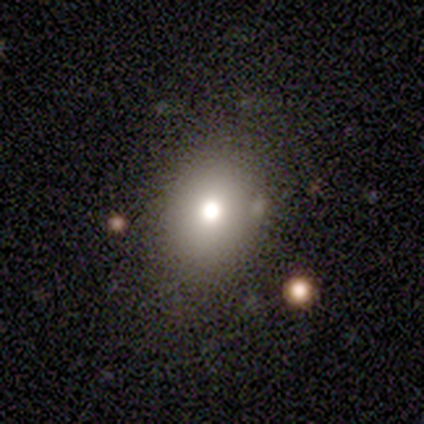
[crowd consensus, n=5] A smooth galaxy with no disk features (40%, tied with featured or disk) that is round (50%, tied with in between). Merging: none (75%).